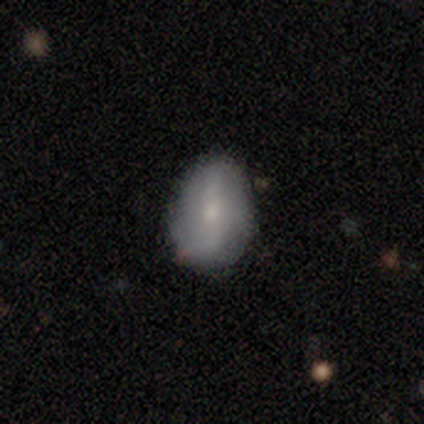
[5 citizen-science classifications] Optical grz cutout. It shows a featured or disk galaxy (60%) with a strong bar (33%, tied with weak and no), 2 (100%) tight (50%, tied with medium) spiral arms (67%) and a small central bulge (67%). Merging: none (60%).